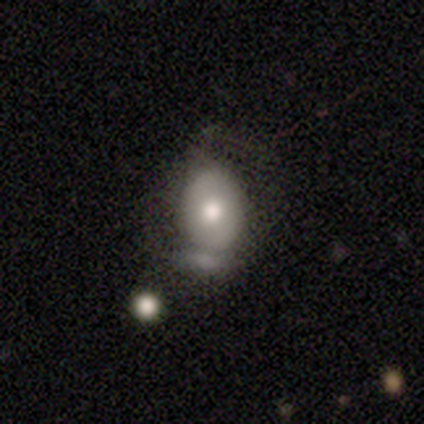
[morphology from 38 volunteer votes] type=smooth (55%); roundness=in between (71%); merging=none (37%).